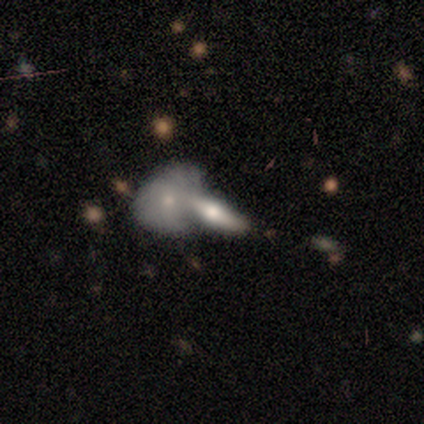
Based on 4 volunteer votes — Smooth or featured?
  - smooth: 50% * (tied)
  - featured or disk: 50% * (tied)
  - star or artifact: 0%
How rounded?
  - cigar-shaped: 100% *
  - round: 0%
  - in between: 0%
Merging?
  - merger: 100% *
  - none: 0%
  - minor disturbance: 0%
  - major disturbance: 0%